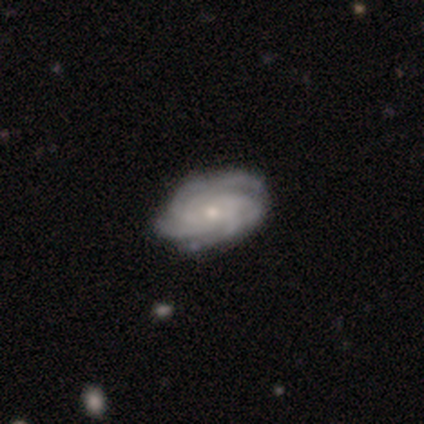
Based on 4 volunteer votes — A featured or disk galaxy (100%) with no bar (75%), 2 (25%, tied with 3, 4 and can't tell) tight (50%) spiral arms (100%) and a moderate central bulge (75%).

Vote fractions:
- Smooth or featured? featured or disk: 100% / smooth: 0% / star or artifact: 0%
- Edge-on disk? no: 100% / yes: 0%
- Bar? no: 75% / weak: 25% / strong: 0%
- Spiral arms? yes: 100% / no: 0%
- Spiral winding? tight: 50% / medium: 25% / loose: 25%
- Spiral arm count? 2: 25% (tied) / 3: 25% (tied) / 4: 25% (tied) / can't tell: 25% (tied) / 1: 0% / more than 4: 0%
- Bulge size? moderate: 75% / small: 25% / dominant: 0% / large: 0% / none: 0%
- Merging? none: 100% / minor disturbance: 0% / major disturbance: 0% / merger: 0%